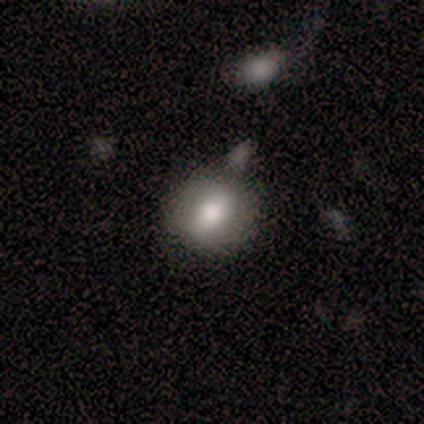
This appears to be a smooth galaxy with no disk features (83%) that is in between round and cigar-shaped (80%). Merging: none (67%).